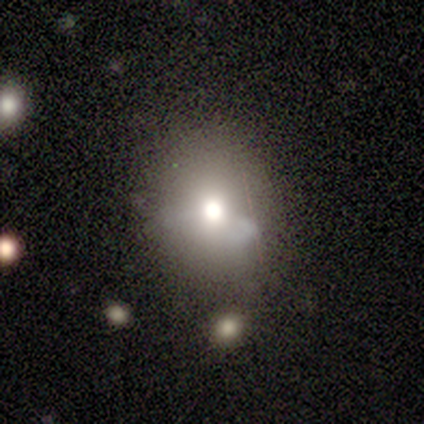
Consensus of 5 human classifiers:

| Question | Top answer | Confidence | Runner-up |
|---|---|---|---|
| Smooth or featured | smooth | 100% | — |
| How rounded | round | 80% | in between (20%) |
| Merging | minor disturbance | 40% | tied: major disturbance (40%) |